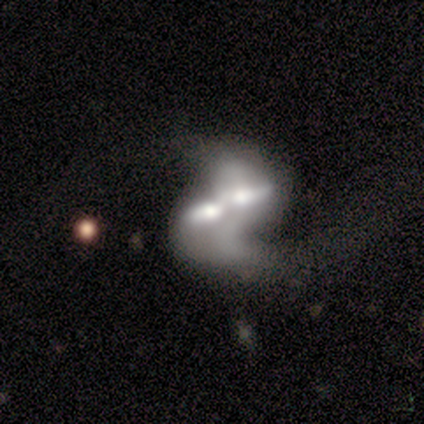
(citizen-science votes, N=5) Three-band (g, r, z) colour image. It shows a featured or disk galaxy (80%) with no bar (100%), 2 (67%) loose (67%) spiral arms (100%) and a dominant central bulge (33%, tied with moderate and none). Merging: merger (100%).